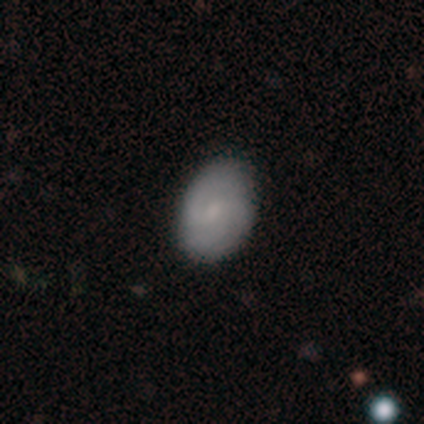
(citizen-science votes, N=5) Smooth or featured?
  - smooth: 40% * (tied)
  - star or artifact: 40% * (tied)
  - featured or disk: 20%
How rounded?
  - in between: 100% *
  - round: 0%
  - cigar-shaped: 0%
Merging?
  - none: 100% *
  - minor disturbance: 0%
  - major disturbance: 0%
  - merger: 0%